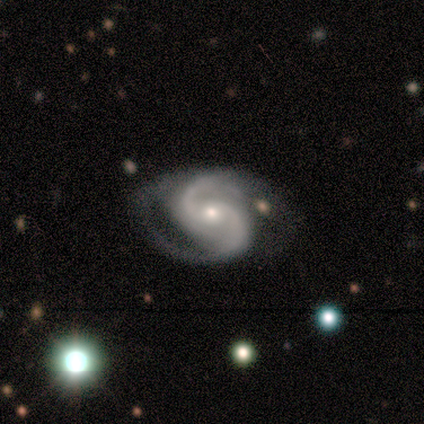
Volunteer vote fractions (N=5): Overall: featured or disk (100%). Edge-on disk: no (100%). Bar: no (100%). Spiral arms: yes (100%). Spiral arm count: 2 (100%). Spiral winding: medium (60%; tight 40%). Bulge size: small (60%; moderate 40%). Merging: none (80%).